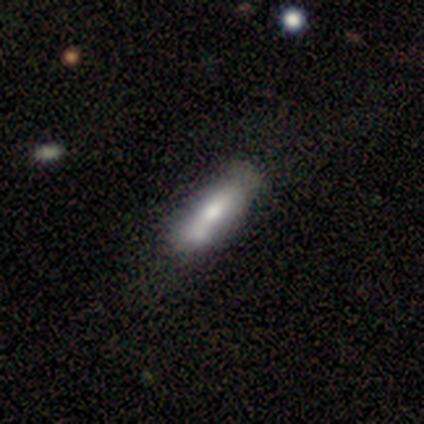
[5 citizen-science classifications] Q: Smooth or featured?
A: featured or disk (60%); runner-up: smooth (40%)
Q: Edge-on disk?
A: no (67%); runner-up: yes (33%)
Q: Bar?
A: strong (100%)
Q: Spiral arms?
A: no (100%)
Q: Bulge size?
A: large (50%); tied with: moderate (50%)
Q: Merging?
A: none (40%); tied with: minor disturbance (40%)